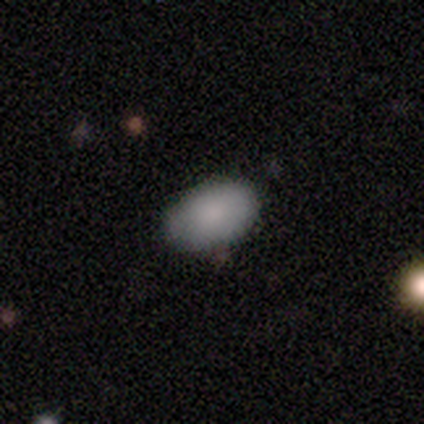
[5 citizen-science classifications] A smooth galaxy with no disk features (80%) that is in between round and cigar-shaped (100%).

Vote fractions:
- Smooth or featured? smooth: 80% / featured or disk: 20% / star or artifact: 0%
- How rounded? in between: 100% / round: 0% / cigar-shaped: 0%
- Merging? none: 80% / minor disturbance: 20% / major disturbance: 0% / merger: 0%